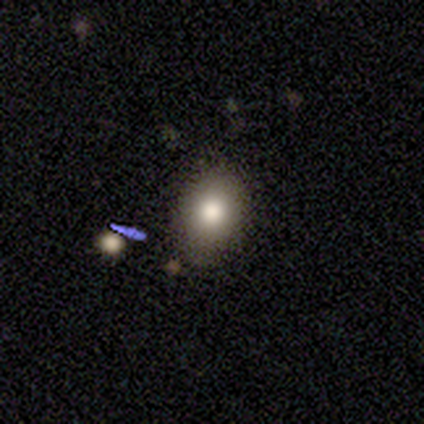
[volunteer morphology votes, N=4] Smooth or featured?
  - smooth: 100% *
  - featured or disk: 0%
  - star or artifact: 0%
How rounded?
  - round: 50% * (tied)
  - in between: 50% * (tied)
  - cigar-shaped: 0%
Merging?
  - none: 25% * (tied)
  - minor disturbance: 25% * (tied)
  - major disturbance: 25% * (tied)
  - merger: 25% * (tied)